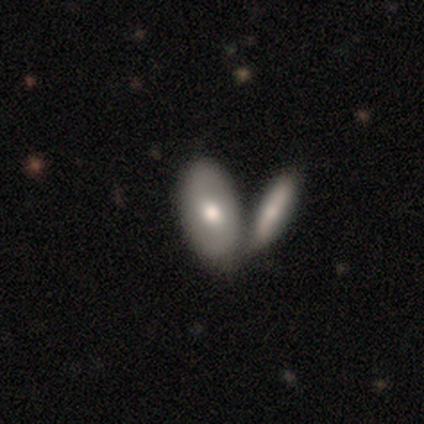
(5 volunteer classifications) Volunteers were most divided on "smooth or featured": smooth: 60%, featured or disk: 40%, star or artifact: 0%. More confident: how rounded — in between (100%); merging — merger (60%).